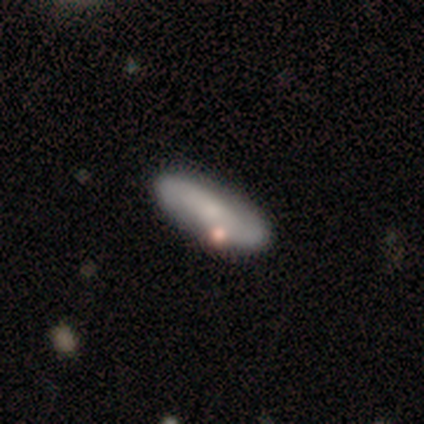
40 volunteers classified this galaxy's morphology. Smooth or featured? 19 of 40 (48%, tied with featured or disk) said smooth. How rounded? 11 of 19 (58%) said in between. Merging? 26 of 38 (68%) said none.